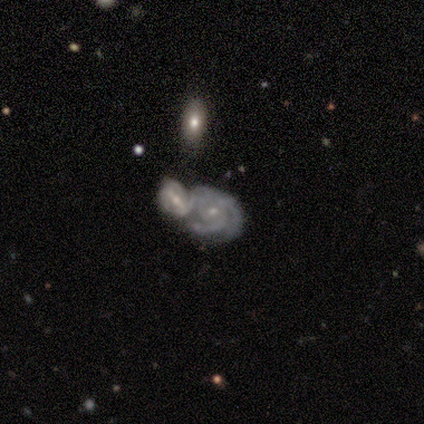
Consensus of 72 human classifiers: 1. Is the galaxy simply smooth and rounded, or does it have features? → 92% featured or disk, 6% star or artifact, 3% smooth.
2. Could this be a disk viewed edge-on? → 95% no, 5% yes.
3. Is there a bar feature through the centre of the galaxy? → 70% no, 29% weak, 2% strong.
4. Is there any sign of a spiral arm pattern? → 97% yes, 3% no.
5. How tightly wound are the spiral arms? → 51% tight, 44% medium, 5% loose.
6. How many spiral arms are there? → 41% 3, 28% can't tell, 20% 2, 5% 1, 5% more than 4, 2% 4.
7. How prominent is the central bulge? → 68% small, 29% moderate, 3% none, 0% dominant, 0% large.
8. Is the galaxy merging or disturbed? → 76% merger, 10% minor disturbance, 9% none, 4% major disturbance.